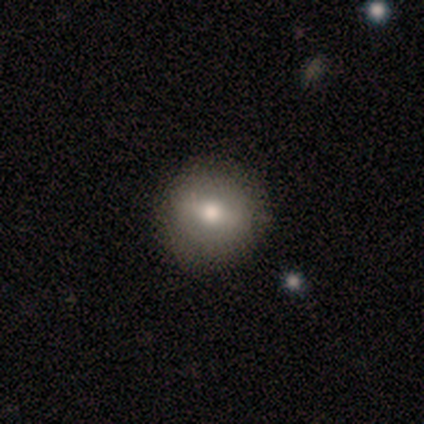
Smooth or featured?
  - featured or disk: 44% *
  - smooth: 41%
  - star or artifact: 15%
Edge-on disk?
  - no: 94% *
  - yes: 6%
Bar?
  - weak: 75% *
  - strong: 12%
  - no: 12%
Spiral arms?
  - no: 100% *
  - yes: 0%
Bulge size?
  - moderate: 69% *
  - small: 25%
  - large: 6%
  - dominant: 0%
  - none: 0%
Merging?
  - none: 88% *
  - minor disturbance: 6%
  - major disturbance: 3%
  - merger: 3%